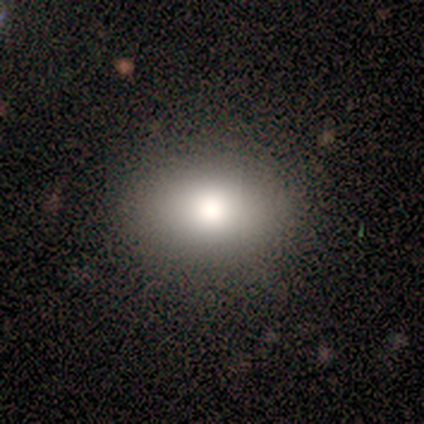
A smooth galaxy with no disk features (100%) that is in between round and cigar-shaped (100%).

Vote fractions:
- Smooth or featured? smooth: 100% / featured or disk: 0% / star or artifact: 0%
- How rounded? in between: 100% / round: 0% / cigar-shaped: 0%
- Merging? none: 100% / minor disturbance: 0% / major disturbance: 0% / merger: 0%